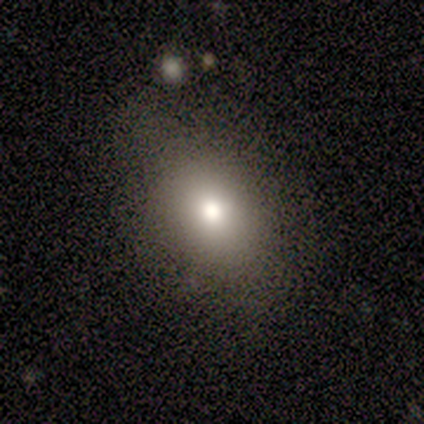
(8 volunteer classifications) smooth 75%, featured or disk 12%, star or artifact 12%. Down the decision tree: how rounded — in between (67%); merging — none (100%).